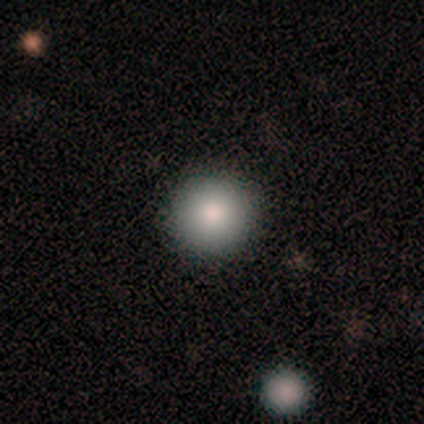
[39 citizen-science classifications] Smooth or featured? 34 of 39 (87%) said smooth. How rounded? 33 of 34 (97%) said round. Merging? 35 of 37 (95%) said none.